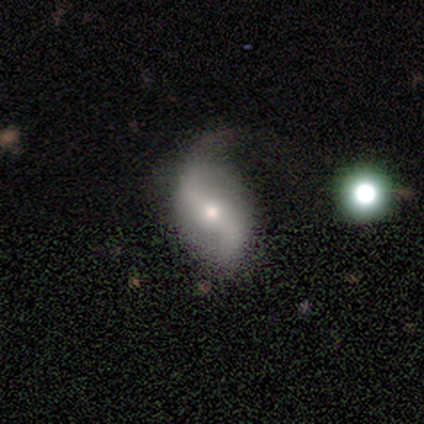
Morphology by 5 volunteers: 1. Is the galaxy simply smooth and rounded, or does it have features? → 100% featured or disk, 0% smooth, 0% star or artifact.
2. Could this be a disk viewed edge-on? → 100% no, 0% yes.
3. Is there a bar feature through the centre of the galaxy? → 40% strong (tied), 40% no (tied), 20% weak.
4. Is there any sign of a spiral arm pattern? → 80% yes, 20% no.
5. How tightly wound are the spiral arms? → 100% loose, 0% tight, 0% medium.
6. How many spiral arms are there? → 75% 2, 25% 1, 0% 3, 0% 4, 0% more than 4, 0% can't tell.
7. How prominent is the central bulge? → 60% moderate, 40% small, 0% dominant, 0% large, 0% none.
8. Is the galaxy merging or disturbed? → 60% none, 40% minor disturbance, 0% major disturbance, 0% merger.